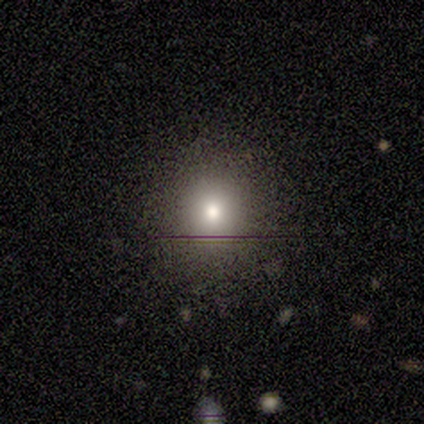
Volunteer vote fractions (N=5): A star or artifact, not a galaxy (60%).